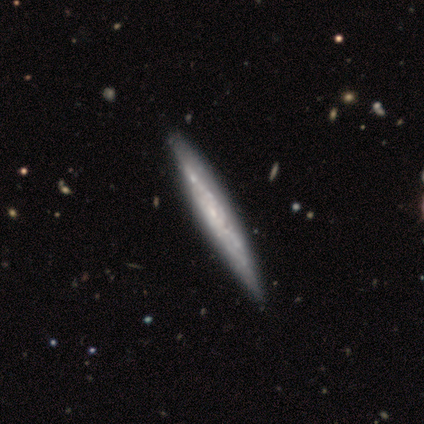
smooth-or-featured: featured or disk: 100% | smooth: 0% | star or artifact: 0%
  disk-edge-on: yes: 60% | no: 40%
    edge-on-bulge: rounded: 67% | none: 33% | boxy: 0%
  merging: none: 60% | minor disturbance: 40% | major disturbance: 0% | merger: 0%